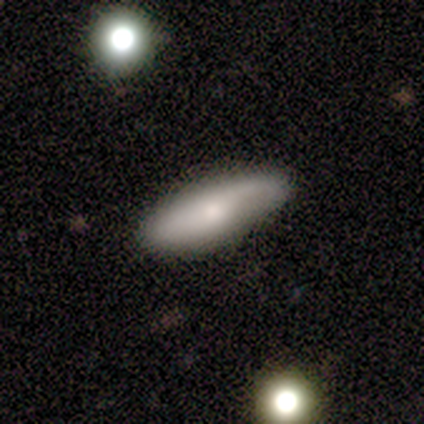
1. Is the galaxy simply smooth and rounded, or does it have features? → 60% smooth, 40% featured or disk, 0% star or artifact.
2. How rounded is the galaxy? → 100% in between, 0% round, 0% cigar-shaped.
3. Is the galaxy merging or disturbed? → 80% none, 20% minor disturbance, 0% major disturbance, 0% merger.